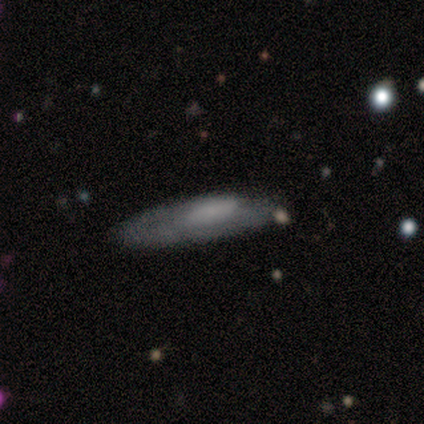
Q: Smooth or featured?
A: featured or disk (80%); runner-up: smooth (20%)
Q: Edge-on disk?
A: yes (50%); tied with: no (50%)
Q: Edge-on bulge?
A: rounded (100%)
Q: Merging?
A: none (60%); runner-up: minor disturbance (20%)